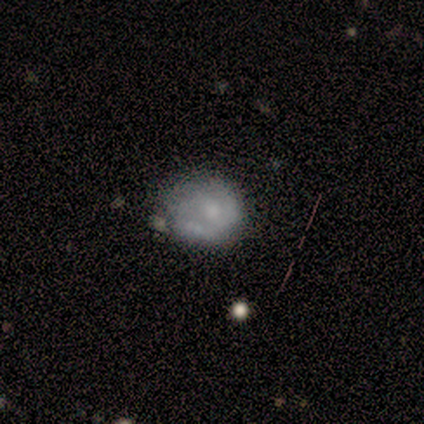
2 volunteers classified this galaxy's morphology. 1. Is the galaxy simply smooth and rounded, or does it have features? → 50% smooth (tied), 50% star or artifact (tied), 0% featured or disk.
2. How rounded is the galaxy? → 100% round, 0% in between, 0% cigar-shaped.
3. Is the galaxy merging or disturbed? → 100% none, 0% minor disturbance, 0% major disturbance, 0% merger.